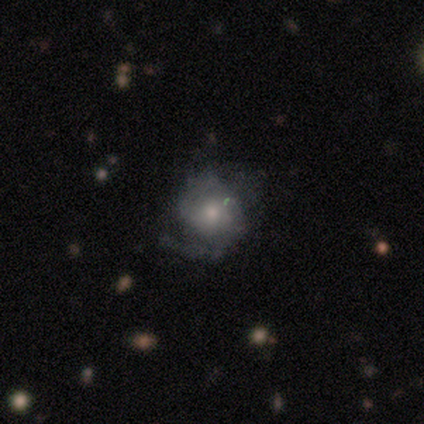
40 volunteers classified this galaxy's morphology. featured or disk 65%, smooth 25%, star or artifact 10%. Down the decision tree: edge-on disk — no (96%); bar — no (72%); spiral arms — yes (72%); spiral arm count — 2 (33%); spiral winding — medium (44%); bulge size — small (60%); merging — none (53%).